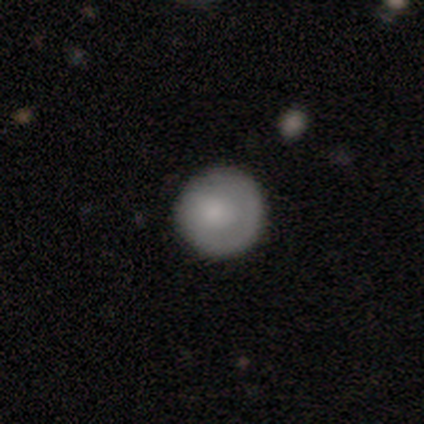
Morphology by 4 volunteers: Smooth or featured? smooth (75%)
How rounded? round (100%)
Merging? none (75%)